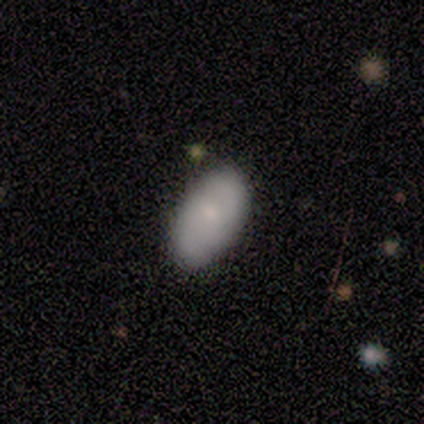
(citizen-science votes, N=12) A smooth galaxy with no disk features (83%) that is in between round and cigar-shaped (100%). Merging: none (75%).